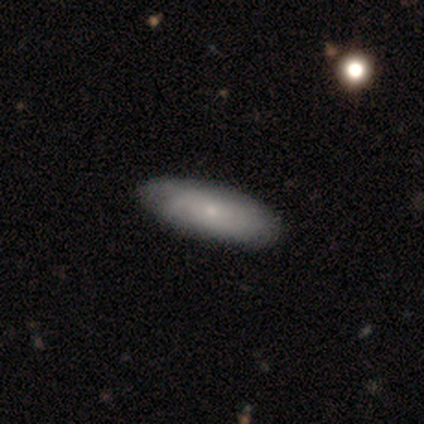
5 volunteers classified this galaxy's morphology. This is likely a featured or disk galaxy (60%). It is likely not viewed edge-on (67%). Bar: clearly no (100%). Spiral arm pattern: clearly yes (100%). Spiral arm count: clearly can't tell (100%). Spiral winding: clearly medium (100%). Central bulge: clearly moderate (100%). Merging: clearly none (100%).